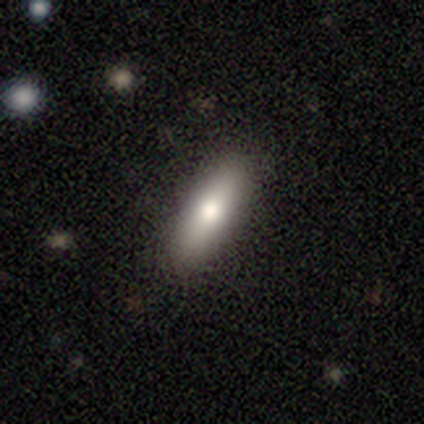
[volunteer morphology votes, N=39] A smooth galaxy with no disk features (82%) that is in between round and cigar-shaped (50%, tied with cigar-shaped). Merging: none (89%).